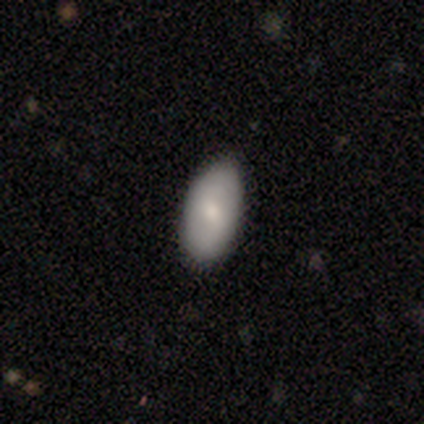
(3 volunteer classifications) smooth 67%, featured or disk 33%, star or artifact 0%. Down the decision tree: how rounded — in between (100%); merging — none (67%).